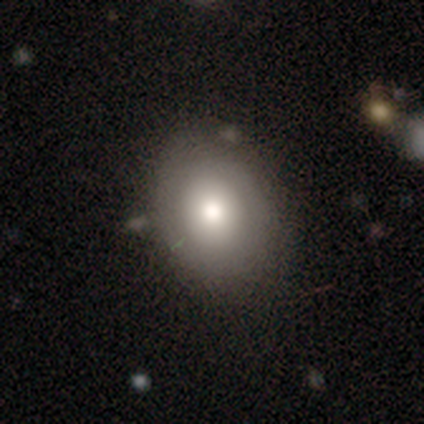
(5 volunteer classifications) Smooth or featured: smooth — 100%
How rounded: in between — 60% (round — 40%)
Merging: none — 80% (minor disturbance — 20%)